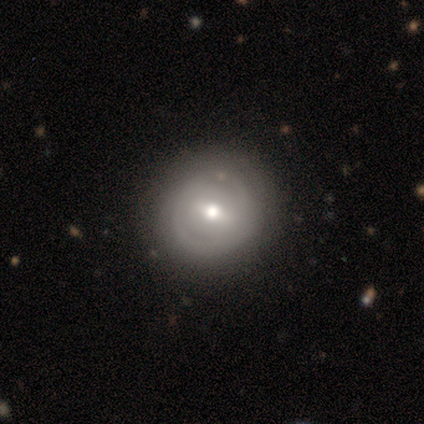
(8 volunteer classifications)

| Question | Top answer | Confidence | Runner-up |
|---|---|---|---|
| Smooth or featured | featured or disk | 62% | smooth (25%) |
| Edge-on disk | no | 100% | — |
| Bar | strong | 40% | tied: no (40%) |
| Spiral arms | no | 80% | yes (20%) |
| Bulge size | moderate | 60% | small (40%) |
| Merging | none | 100% | — |